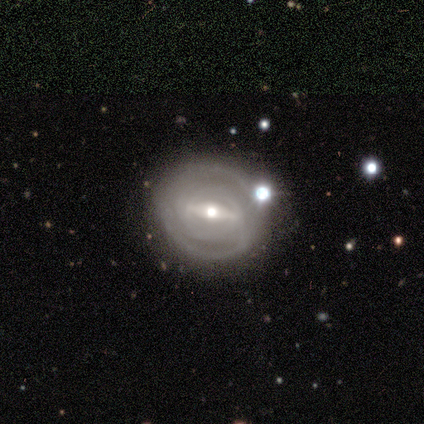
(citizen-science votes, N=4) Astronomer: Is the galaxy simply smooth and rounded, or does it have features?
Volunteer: featured or disk — 100%.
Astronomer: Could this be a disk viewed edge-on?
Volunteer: no — 100%.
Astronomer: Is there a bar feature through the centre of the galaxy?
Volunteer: strong — 75%.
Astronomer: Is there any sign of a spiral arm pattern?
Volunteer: yes — 75%.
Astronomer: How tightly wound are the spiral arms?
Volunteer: tight — 67%.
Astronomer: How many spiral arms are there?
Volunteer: can't tell — 67%.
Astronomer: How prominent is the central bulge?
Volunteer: moderate — 75%.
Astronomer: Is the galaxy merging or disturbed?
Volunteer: none — 100%.